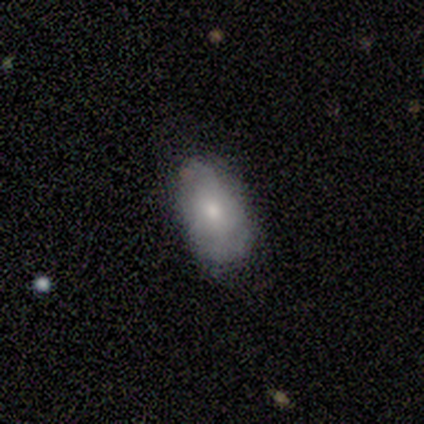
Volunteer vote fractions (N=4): Smooth or featured? smooth (100%)
How rounded? in between (100%)
Merging? none (100%)